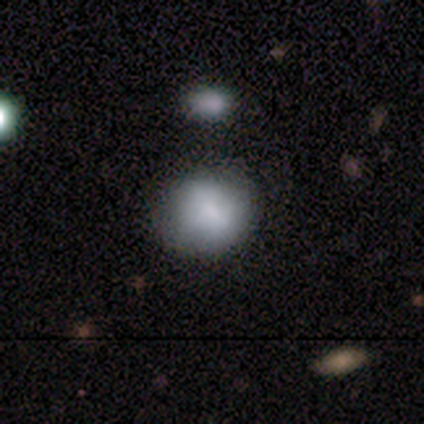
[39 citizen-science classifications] Morphology: type=smooth (67%); roundness=round (88%); merging=none (81%).